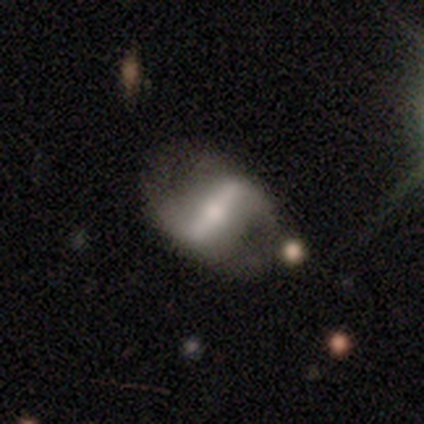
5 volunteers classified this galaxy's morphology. This appears to be a smooth galaxy with no disk features (60%) that is in between round and cigar-shaped (67%). Merging: none (40%).